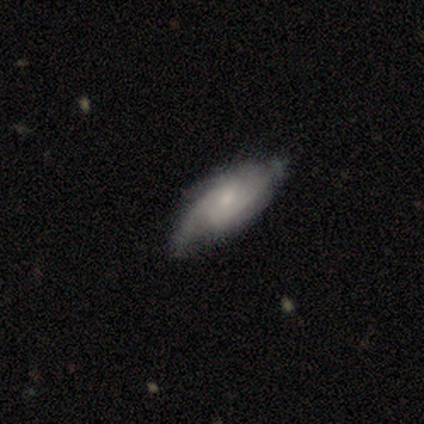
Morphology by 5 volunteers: type=featured or disk (80%); edge-on=no (100%); bar=weak (50%, tied with no); spiral arms=yes (75%); winding=medium (67%); arm count=2 (67%); bulge=small (50%); merging=none (60%).